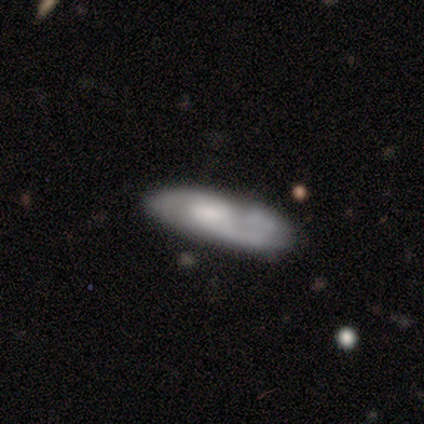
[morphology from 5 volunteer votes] smooth_or_featured: smooth (p=0.60) [alt: featured or disk p=0.20]
how_rounded: in between (p=0.67) [alt: cigar-shaped p=0.33]
merging: none (p=0.75) [alt: minor disturbance p=0.25]